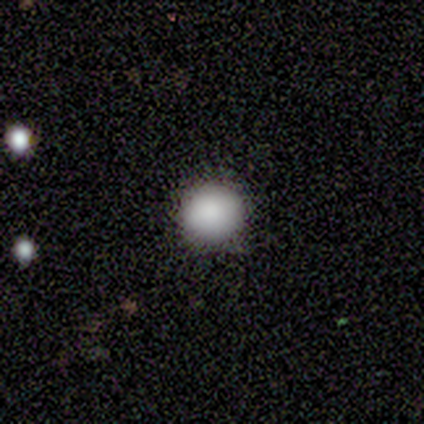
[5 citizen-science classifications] smooth_or_featured: smooth (p=1.00)
how_rounded: round (p=1.00)
merging: none (p=0.80) [alt: minor disturbance p=0.20]